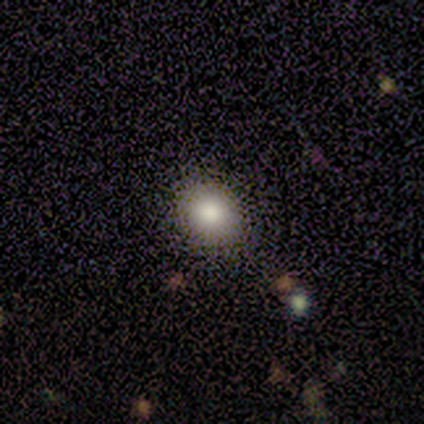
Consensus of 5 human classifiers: Smooth or featured? smooth (100%)
How rounded? in between (60%)
Merging? none (80%)